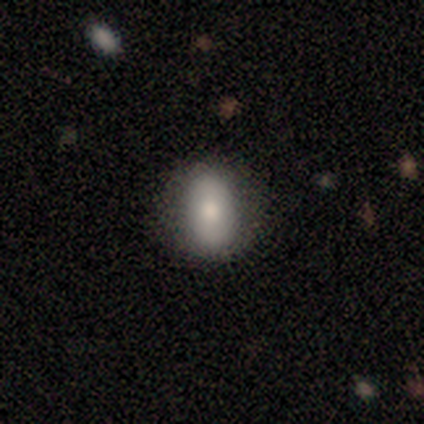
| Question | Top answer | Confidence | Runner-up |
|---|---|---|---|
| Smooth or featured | smooth | 75% | featured or disk (25%) |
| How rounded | in between | 100% | — |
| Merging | none | 75% | minor disturbance (25%) |